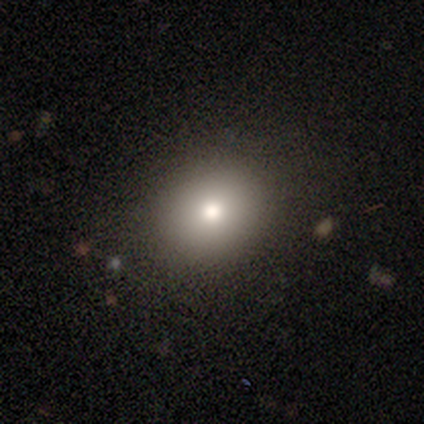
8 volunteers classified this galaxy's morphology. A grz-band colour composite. It shows a smooth galaxy with no disk features (88%) that is round (86%). Merging: none (86%).